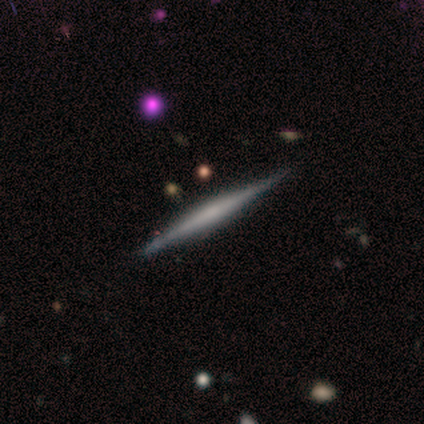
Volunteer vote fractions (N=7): featured or disk 86%, star or artifact 14%, smooth 0%. Down the decision tree: edge-on disk — yes (100%); edge-on bulge — none (67%); merging — none (83%).